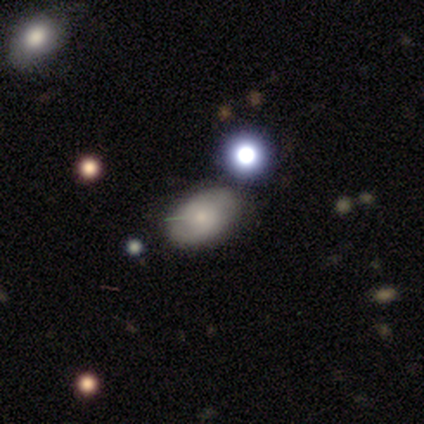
smooth_or_featured: smooth (p=0.86) [alt: star or artifact p=0.14]
how_rounded: in between (p=1.00)
merging: none (p=1.00)